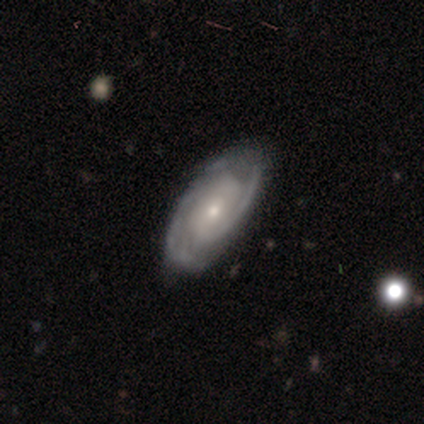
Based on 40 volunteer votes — This is clearly a featured or disk galaxy (88%). It is clearly not viewed edge-on (97%). Bar: likely no (74%). Spiral arm pattern: clearly yes (97%). Spiral arm count: likely 2 (79%). Spiral winding: possibly tight (58%). Central bulge: possibly small (59%). Merging: possibly none (56%).